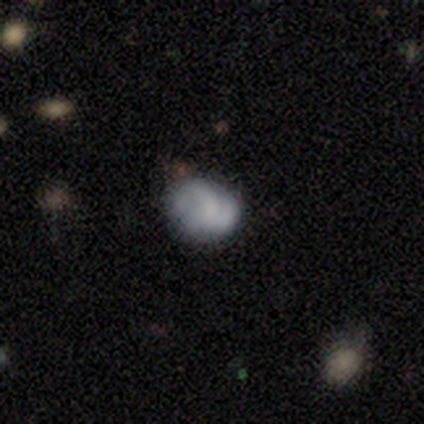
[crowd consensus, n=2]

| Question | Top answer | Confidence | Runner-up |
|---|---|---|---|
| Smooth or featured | featured or disk | 100% | — |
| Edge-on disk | no | 100% | — |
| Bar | no | 100% | — |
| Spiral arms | yes | 100% | — |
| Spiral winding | tight | 50% | tied: loose (50%) |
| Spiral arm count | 2 | 100% | — |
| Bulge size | small | 50% | tied: none (50%) |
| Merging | none | 100% | — |